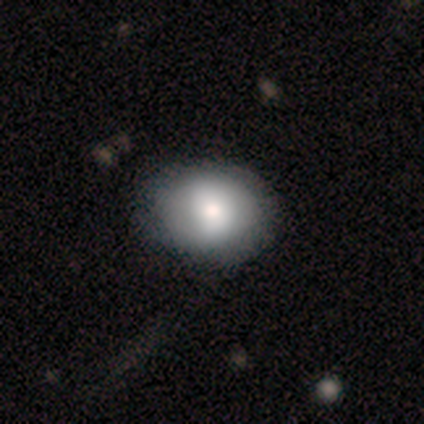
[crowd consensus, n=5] Smooth or featured? 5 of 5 (100%) said smooth. How rounded? 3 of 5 (60%) said in between. Merging? 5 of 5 (100%) said none.